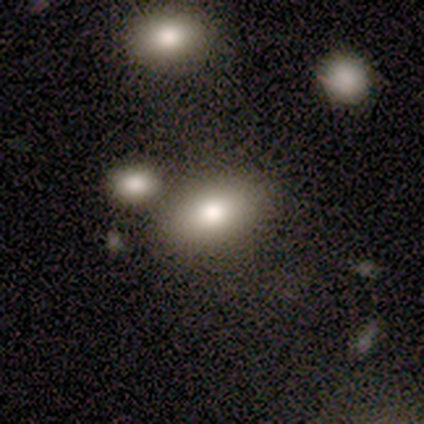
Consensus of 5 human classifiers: This appears to be a smooth galaxy with no disk features (80%) that is in between round and cigar-shaped (75%). Merging: none (80%).